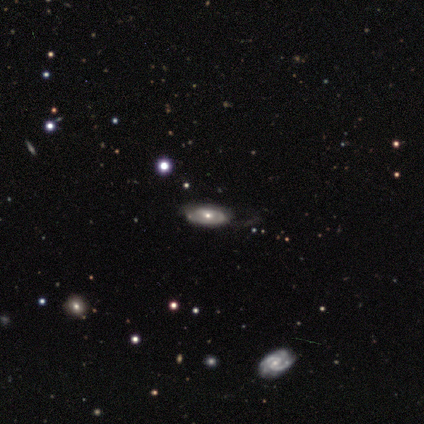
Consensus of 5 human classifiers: Smooth or featured?
  - featured or disk: 60% *
  - smooth: 20%
  - star or artifact: 20%
Edge-on disk?
  - no: 67% *
  - yes: 33%
Bar?
  - no: 100% *
  - strong: 0%
  - weak: 0%
Spiral arms?
  - yes: 50% * (tied)
  - no: 50% * (tied)
Spiral winding?
  - tight: 100% *
  - medium: 0%
  - loose: 0%
Spiral arm count?
  - 2: 100% *
  - 1: 0%
  - 3: 0%
  - 4: 0%
  - more than 4: 0%
  - can't tell: 0%
Bulge size?
  - moderate: 50% * (tied)
  - small: 50% * (tied)
  - dominant: 0%
  - large: 0%
  - none: 0%
Merging?
  - none: 75% *
  - minor disturbance: 25%
  - major disturbance: 0%
  - merger: 0%